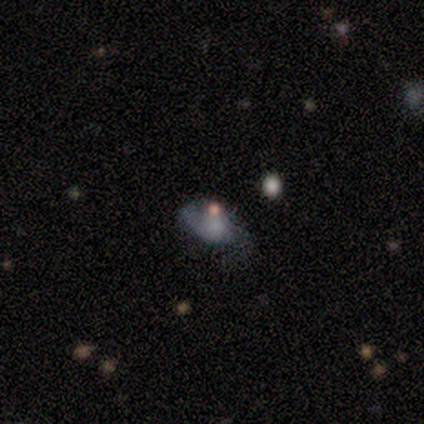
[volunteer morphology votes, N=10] Smooth or featured: featured or disk — 60% (star or artifact — 30%)
Edge-on disk: no — 83% (yes — 17%)
Bar: no — 80% (strong — 20%)
Spiral arms: no — 80% (yes — 20%)
Bulge size: none — 60% (large — 20%)
Merging: minor disturbance — 57% (none — 14%)